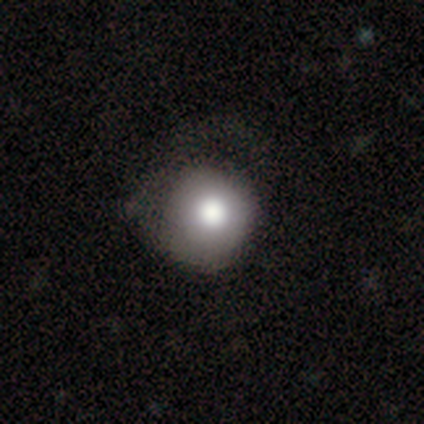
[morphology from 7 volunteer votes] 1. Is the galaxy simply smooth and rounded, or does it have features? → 100% smooth, 0% featured or disk, 0% star or artifact.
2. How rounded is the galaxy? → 86% round, 14% in between, 0% cigar-shaped.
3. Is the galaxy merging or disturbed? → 57% none, 43% minor disturbance, 0% major disturbance, 0% merger.